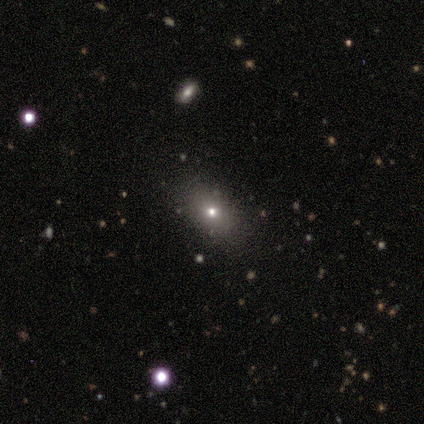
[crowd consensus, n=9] smooth_or_featured: smooth (p=0.56) [alt: star or artifact p=0.33]
how_rounded: in between (p=1.00)
merging: none (p=0.83) [alt: minor disturbance p=0.17]